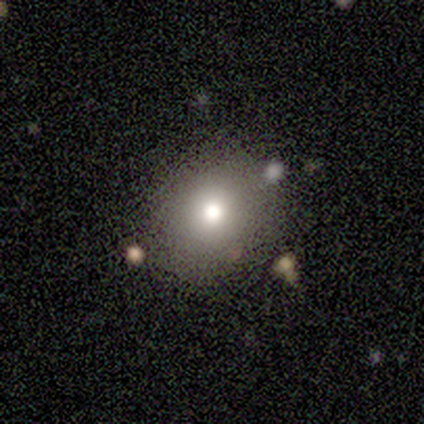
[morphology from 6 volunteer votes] smooth-or-featured: smooth: 83% | star or artifact: 17% | featured or disk: 0%
  how-rounded: round: 100% | in between: 0% | cigar-shaped: 0%
  merging: none: 40% (tied) | minor disturbance: 40% (tied) | merger: 20% | major disturbance: 0%